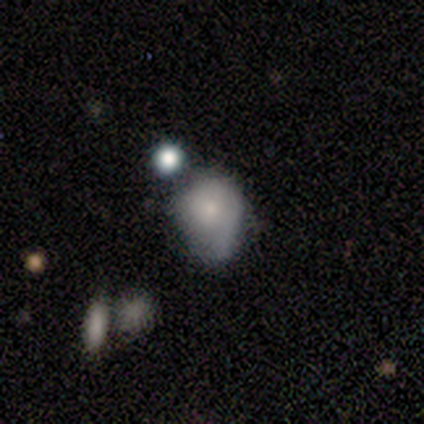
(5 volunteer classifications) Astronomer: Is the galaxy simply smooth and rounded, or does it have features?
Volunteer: smooth — 100%.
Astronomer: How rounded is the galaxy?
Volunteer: round — 60% (runner-up: in between, 40%).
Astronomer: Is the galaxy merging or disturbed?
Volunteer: minor disturbance — 60%.